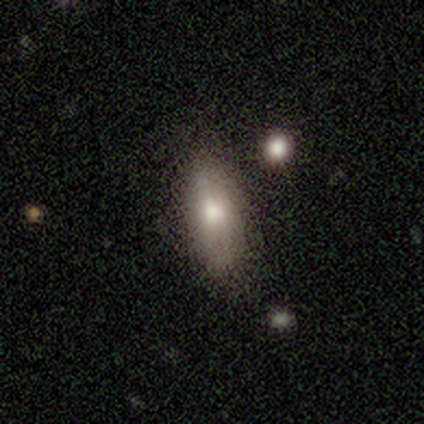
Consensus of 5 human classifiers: A smooth galaxy with no disk features (80%) that is in between round and cigar-shaped (75%).

Vote fractions:
- Smooth or featured? smooth: 80% / featured or disk: 20% / star or artifact: 0%
- How rounded? in between: 75% / cigar-shaped: 25% / round: 0%
- Merging? none: 80% / minor disturbance: 20% / major disturbance: 0% / merger: 0%